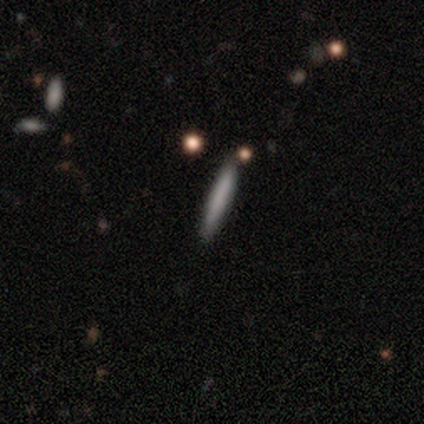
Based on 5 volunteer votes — Smooth or featured: smooth — 80% (star or artifact — 20%)
How rounded: cigar-shaped — 100%
Merging: none — 100%